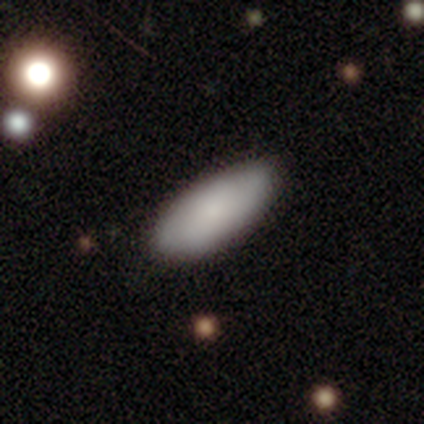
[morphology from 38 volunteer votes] Volunteers were most divided on "merging": none: 50%, minor disturbance: 11%, major disturbance: 0%, merger: 0%. More confident: how rounded — in between (90%); smooth or featured — smooth (82%).